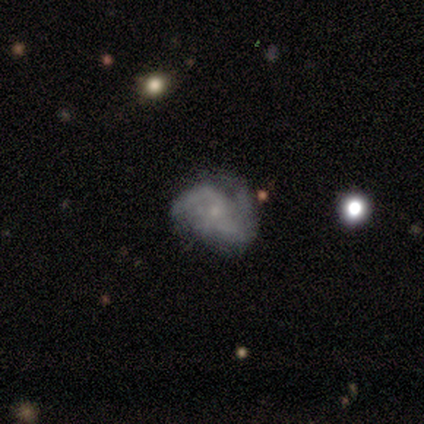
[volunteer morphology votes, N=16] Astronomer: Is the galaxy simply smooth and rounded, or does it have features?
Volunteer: featured or disk — 88%.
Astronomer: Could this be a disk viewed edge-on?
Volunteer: no — 100%.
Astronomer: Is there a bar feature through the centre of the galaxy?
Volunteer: no — 79%.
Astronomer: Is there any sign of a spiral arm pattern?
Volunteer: yes — 71%.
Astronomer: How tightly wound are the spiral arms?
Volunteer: medium — 50%, tied with loose at 50%.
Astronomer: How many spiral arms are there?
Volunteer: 2 — 50% (runner-up: can't tell, 30%).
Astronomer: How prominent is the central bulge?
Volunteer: small — 79%.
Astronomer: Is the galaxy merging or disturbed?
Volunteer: none — 50%.